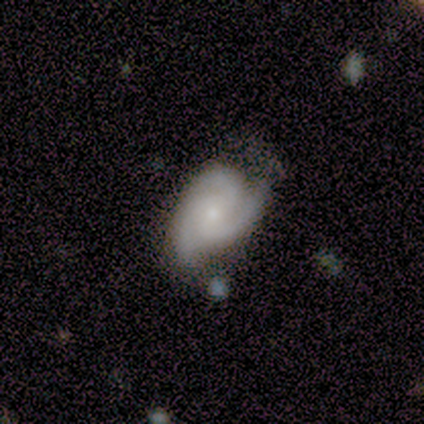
smooth-or-featured: featured or disk: 100% | smooth: 0% | star or artifact: 0%
  disk-edge-on: no: 80% | yes: 20%
    bar: no: 100% | strong: 0% | weak: 0%
    has-spiral-arms: yes: 75% | no: 25%
      spiral-winding: medium: 67% | tight: 33% | loose: 0%
      spiral-arm-count: 3: 100% | 1: 0% | 2: 0% | 4: 0% | more than 4: 0% | can't tell: 0%
    bulge-size: small: 75% | moderate: 25% | dominant: 0% | large: 0% | none: 0%
  merging: none: 60% | minor disturbance: 20% | major disturbance: 20% | merger: 0%